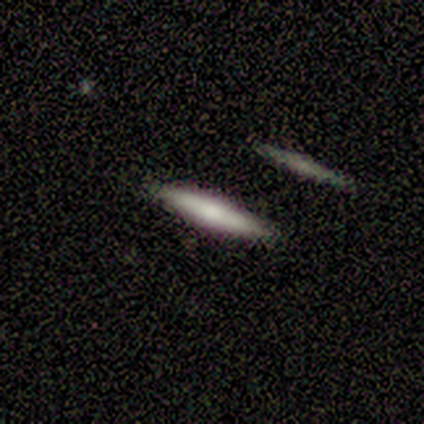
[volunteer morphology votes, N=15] Overall: featured or disk (53%; smooth 40%). Edge-on disk: yes (100%). Edge-on bulge: rounded (62%; none 25%). Merging: none (93%).